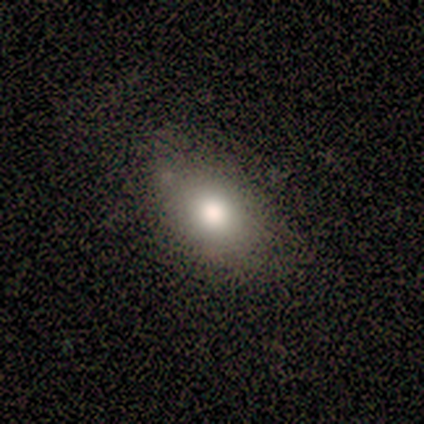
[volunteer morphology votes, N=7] Smooth or featured? smooth (71%)
How rounded? in between (80%)
Merging? none (83%)